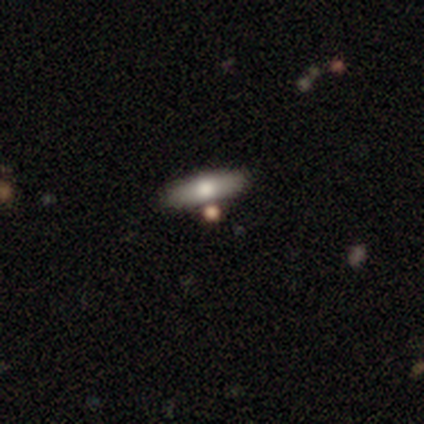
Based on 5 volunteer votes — smooth_or_featured: smooth (p=0.60) [alt: featured or disk p=0.20]
how_rounded: cigar-shaped (p=0.67) [alt: round p=0.33]
merging: none (p=0.75) [alt: merger p=0.25]